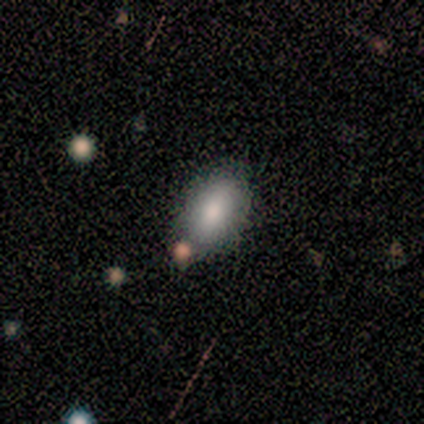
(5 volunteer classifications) Morphology: type=smooth (40%, tied with star or artifact); roundness=in between (100%); merging=none (100%).